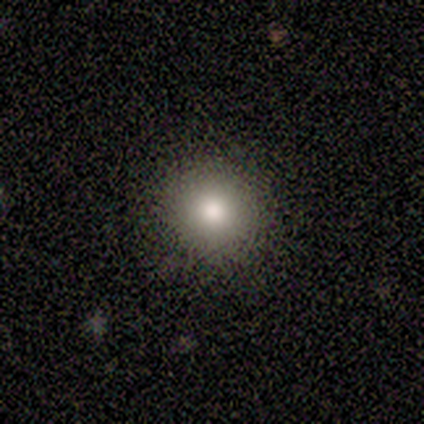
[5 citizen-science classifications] Q: Smooth or featured?
A: smooth (60%); runner-up: star or artifact (40%)
Q: How rounded?
A: round (100%)
Q: Merging?
A: none (100%)